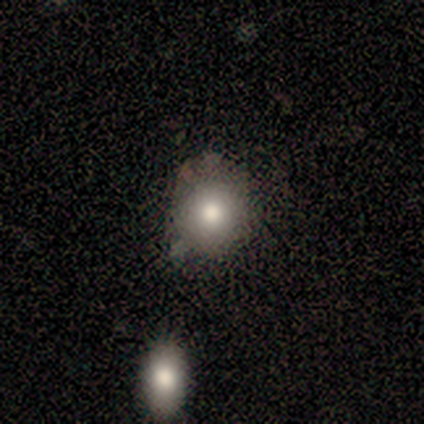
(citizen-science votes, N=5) This is clearly a smooth galaxy (80%). How rounded: clearly round (100%). Merging: clearly none (100%).